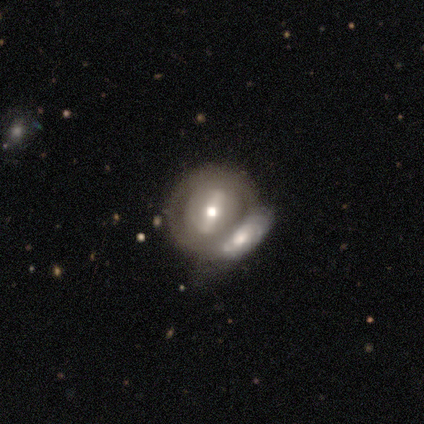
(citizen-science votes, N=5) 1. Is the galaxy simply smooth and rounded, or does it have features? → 80% featured or disk, 20% star or artifact, 0% smooth.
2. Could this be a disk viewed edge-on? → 100% no, 0% yes.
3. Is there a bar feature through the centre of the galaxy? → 75% strong, 25% no, 0% weak.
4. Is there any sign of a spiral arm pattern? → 75% no, 25% yes.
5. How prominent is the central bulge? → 100% moderate, 0% dominant, 0% large, 0% small, 0% none.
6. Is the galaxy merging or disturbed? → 100% merger, 0% none, 0% minor disturbance, 0% major disturbance.